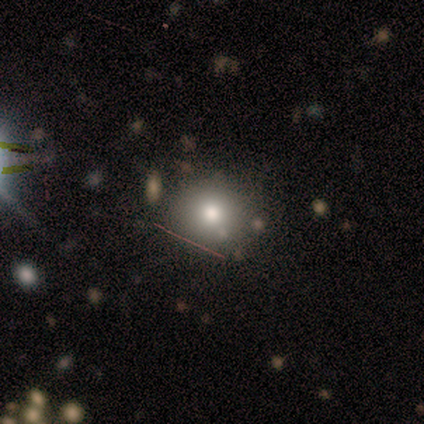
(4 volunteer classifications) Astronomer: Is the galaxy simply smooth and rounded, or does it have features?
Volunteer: smooth — 75%.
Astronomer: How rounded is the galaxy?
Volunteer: round — 100%.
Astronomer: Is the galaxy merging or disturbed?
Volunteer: none — 100%.